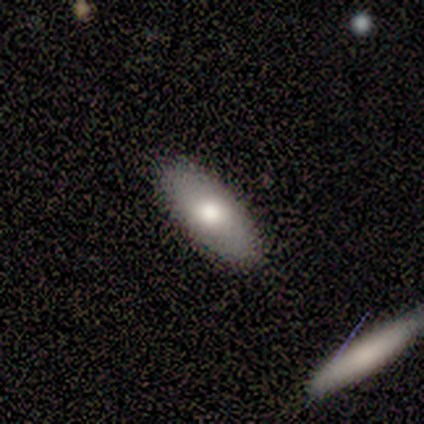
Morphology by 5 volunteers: This is likely a smooth galaxy (60%). How rounded: likely in between (67%). Merging: clearly none (80%).